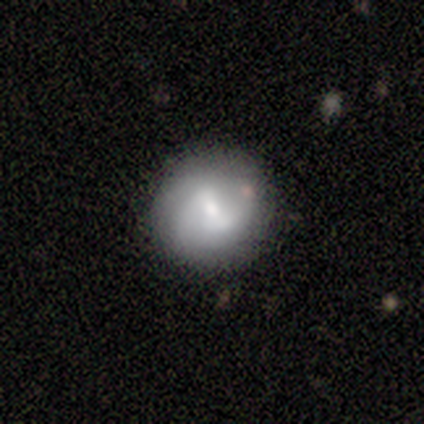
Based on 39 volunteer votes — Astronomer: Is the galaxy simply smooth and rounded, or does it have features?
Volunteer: featured or disk — 49% (runner-up: smooth, 46%).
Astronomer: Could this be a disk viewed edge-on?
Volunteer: no — 100%.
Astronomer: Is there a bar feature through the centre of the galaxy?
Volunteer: weak — 58%.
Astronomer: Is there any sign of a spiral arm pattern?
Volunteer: yes — 84%.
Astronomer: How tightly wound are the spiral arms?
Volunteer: loose — 50% (runner-up: medium, 31%).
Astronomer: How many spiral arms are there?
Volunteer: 2 — 75%.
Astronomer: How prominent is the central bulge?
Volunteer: moderate — 53% (runner-up: small, 42%).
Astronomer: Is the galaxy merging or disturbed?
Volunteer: none — 78%.